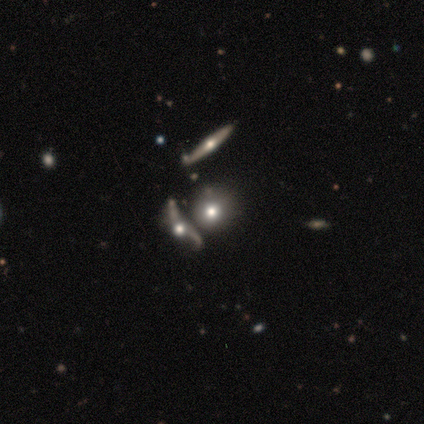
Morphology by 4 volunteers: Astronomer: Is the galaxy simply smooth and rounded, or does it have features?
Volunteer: featured or disk — 75%.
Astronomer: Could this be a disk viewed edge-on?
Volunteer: yes — 67%.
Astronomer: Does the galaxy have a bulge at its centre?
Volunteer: rounded — 100%.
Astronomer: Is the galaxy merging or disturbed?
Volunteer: merger — 100%.